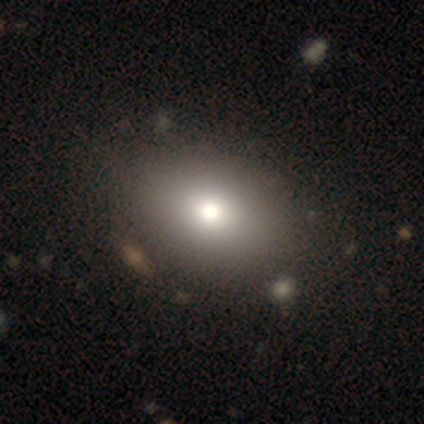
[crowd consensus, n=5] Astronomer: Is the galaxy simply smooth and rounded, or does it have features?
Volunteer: smooth — 60% (runner-up: featured or disk, 40%).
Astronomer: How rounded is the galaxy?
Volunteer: in between — 100%.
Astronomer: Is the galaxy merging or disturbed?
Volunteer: none — 40%, tied with minor disturbance at 40%.